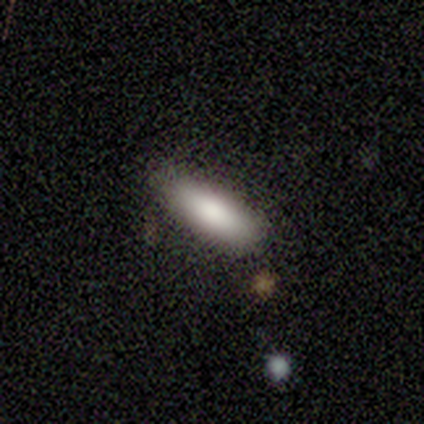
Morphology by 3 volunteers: smooth_or_featured: smooth (p=1.00)
how_rounded: in between (p=1.00)
merging: none (p=1.00)